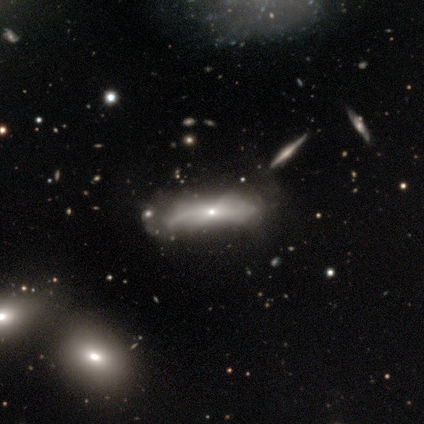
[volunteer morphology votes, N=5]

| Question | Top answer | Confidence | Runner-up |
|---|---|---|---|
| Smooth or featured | featured or disk | 60% | smooth (40%) |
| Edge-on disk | yes | 67% | no (33%) |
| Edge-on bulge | none | 50% | tied: rounded (50%) |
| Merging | none | 40% | tied: minor disturbance (40%) |